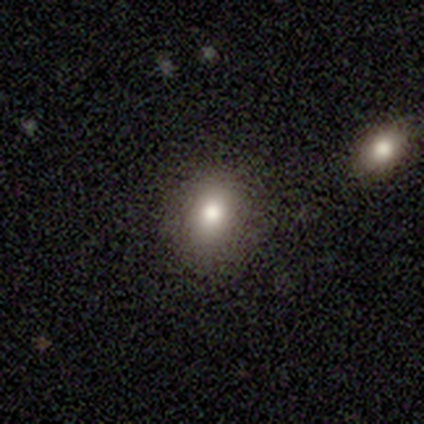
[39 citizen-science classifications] smooth-or-featured: smooth: 77% | star or artifact: 18% | featured or disk: 5%
  how-rounded: in between: 63% | round: 37% | cigar-shaped: 0%
  merging: none: 88% | minor disturbance: 6% | merger: 6% | major disturbance: 0%